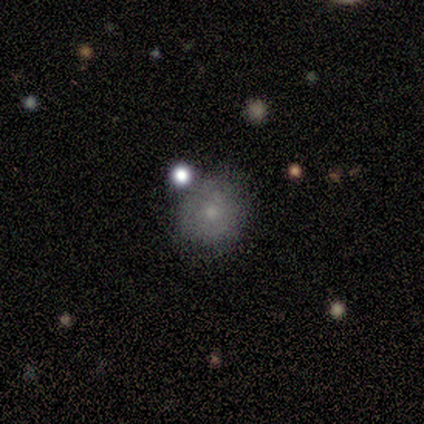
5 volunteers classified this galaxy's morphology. Smooth or featured? smooth (80%)
How rounded? round (100%)
Merging? none (75%)